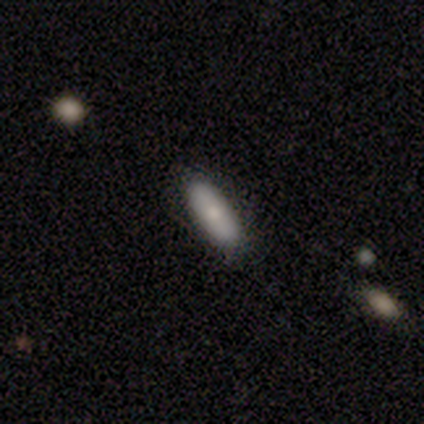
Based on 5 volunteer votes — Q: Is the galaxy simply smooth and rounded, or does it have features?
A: smooth — 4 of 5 (80%).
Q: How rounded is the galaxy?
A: in between — 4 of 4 (100%).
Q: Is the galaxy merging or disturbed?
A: none — 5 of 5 (100%).